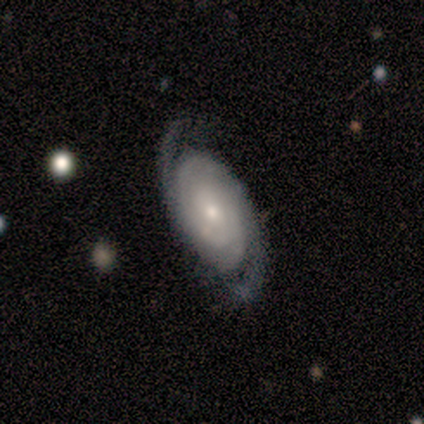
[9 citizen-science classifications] Smooth or featured? featured or disk (100%)
Edge-on disk? no (100%)
Bar? no (67%)
Spiral arms? yes (100%)
Spiral winding? tight (67%)
Spiral arm count? 2 (89%)
Bulge size? small (56%)
Merging? none (78%)